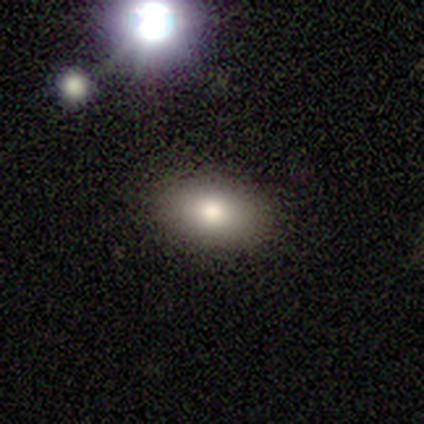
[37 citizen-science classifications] This is clearly a smooth galaxy (89%). How rounded: likely in between (79%). Merging: clearly none (91%).